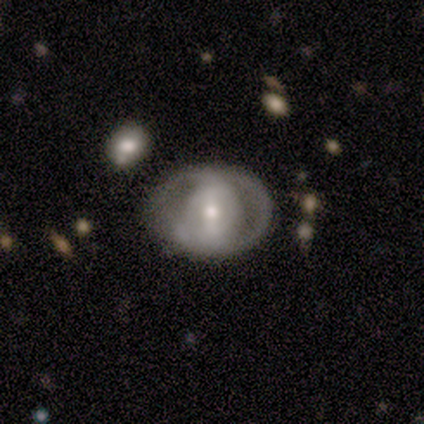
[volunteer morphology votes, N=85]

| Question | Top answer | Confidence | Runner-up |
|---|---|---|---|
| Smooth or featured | featured or disk | 67% | smooth (27%) |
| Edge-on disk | no | 93% | yes (7%) |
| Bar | strong | 43% | weak (36%) |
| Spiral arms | no | 72% | yes (28%) |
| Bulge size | moderate | 60% | small (23%) |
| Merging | none | 69% | minor disturbance (20%) |